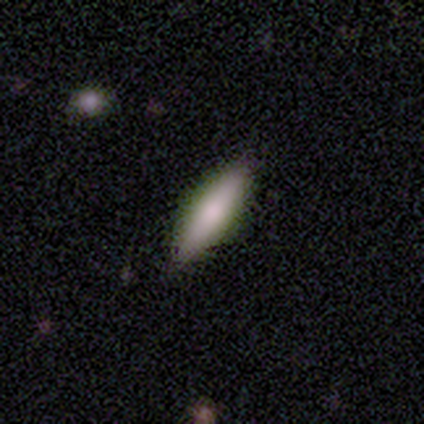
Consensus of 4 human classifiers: This is likely a smooth galaxy (75%). How rounded: likely cigar-shaped (67%). Merging: clearly none (100%).